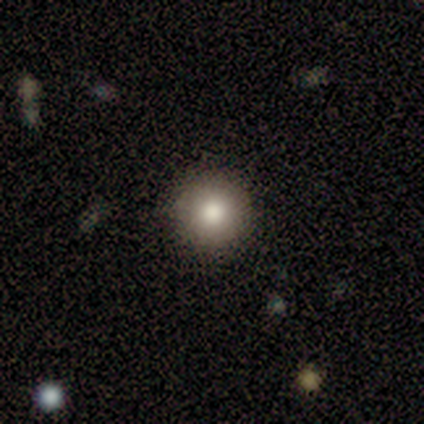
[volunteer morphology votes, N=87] This appears to be a smooth galaxy with no disk features (84%) that is round (99%). Merging: none (95%).